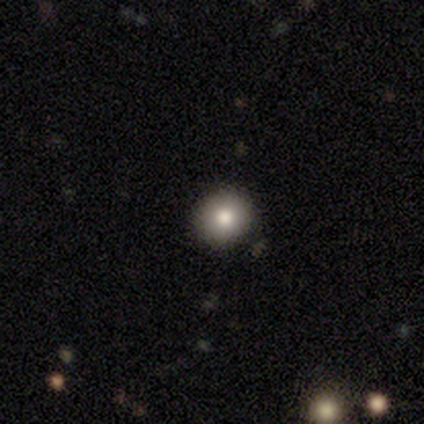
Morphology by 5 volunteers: Volunteers were most divided on "smooth or featured": smooth: 80%, featured or disk: 20%, star or artifact: 0%. More confident: how rounded — round (100%); merging — none (100%).